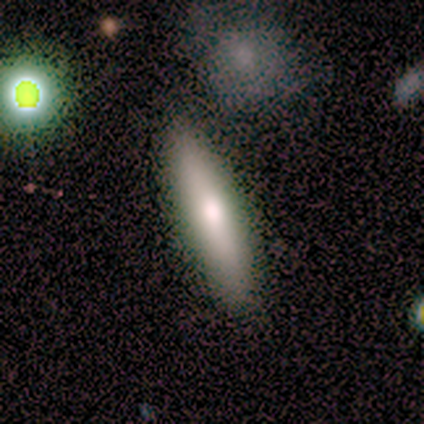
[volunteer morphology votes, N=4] Smooth or featured?
  - smooth: 75% *
  - featured or disk: 25%
  - star or artifact: 0%
How rounded?
  - cigar-shaped: 67% *
  - in between: 33%
  - round: 0%
Merging?
  - none: 100% *
  - minor disturbance: 0%
  - major disturbance: 0%
  - merger: 0%